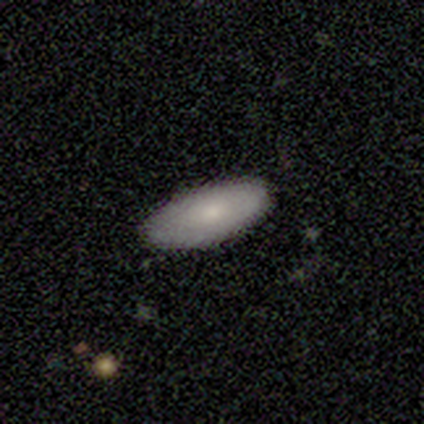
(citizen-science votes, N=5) Smooth or featured?
  - smooth: 60% *
  - featured or disk: 40%
  - star or artifact: 0%
How rounded?
  - in between: 100% *
  - round: 0%
  - cigar-shaped: 0%
Merging?
  - none: 100% *
  - minor disturbance: 0%
  - major disturbance: 0%
  - merger: 0%